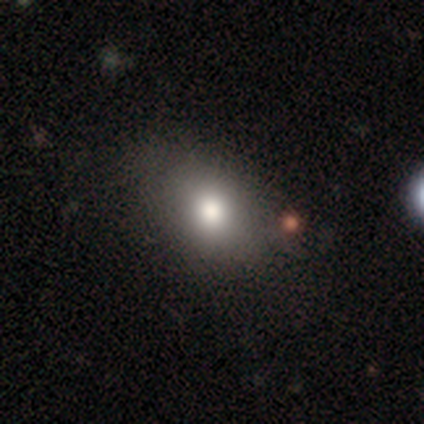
Morphology: type=smooth (85%); roundness=in between (70%); merging=none (58%).